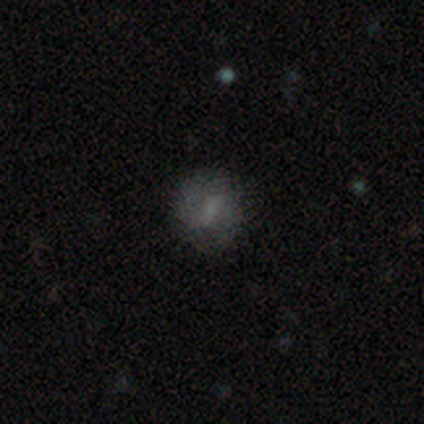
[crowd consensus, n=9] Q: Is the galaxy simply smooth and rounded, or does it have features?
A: smooth — 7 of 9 (78%).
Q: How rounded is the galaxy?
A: round — 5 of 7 (71%).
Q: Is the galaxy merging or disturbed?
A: none — 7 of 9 (78%).